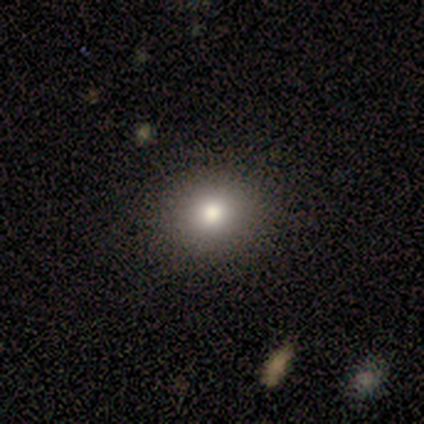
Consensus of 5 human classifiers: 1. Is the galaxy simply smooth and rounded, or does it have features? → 60% smooth, 20% featured or disk, 20% star or artifact.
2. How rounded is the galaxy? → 100% round, 0% in between, 0% cigar-shaped.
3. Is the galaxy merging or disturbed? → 100% none, 0% minor disturbance, 0% major disturbance, 0% merger.